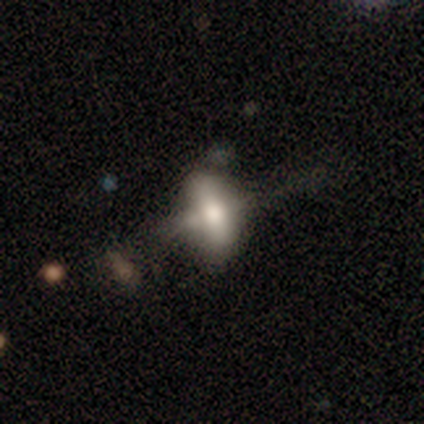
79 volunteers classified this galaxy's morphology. smooth-or-featured: featured or disk: 47% | smooth: 44% | star or artifact: 9%
  disk-edge-on: no: 59% | yes: 41%
    bar: no: 73% | strong: 23% | weak: 5%
    has-spiral-arms: no: 100% | yes: 0%
    bulge-size: moderate: 45% | large: 36% | dominant: 9% | small: 9% | none: 0%
  merging: minor disturbance: 17% | none: 15% | major disturbance: 12% | merger: 10%